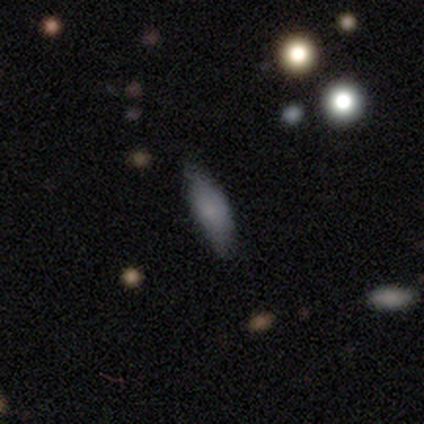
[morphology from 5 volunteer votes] Smooth or featured? 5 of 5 (100%) said smooth. How rounded? 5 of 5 (100%) said in between. Merging? 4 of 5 (80%) said none.